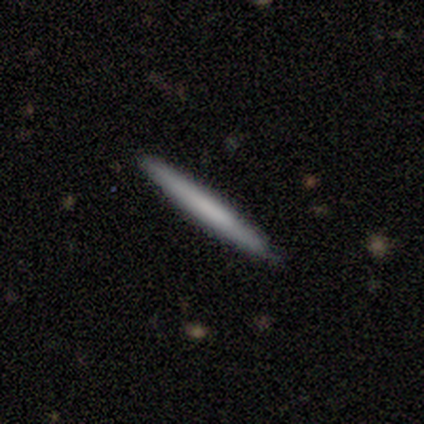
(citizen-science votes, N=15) This is likely a smooth galaxy (67%). How rounded: clearly cigar-shaped (100%). Merging: clearly none (87%).